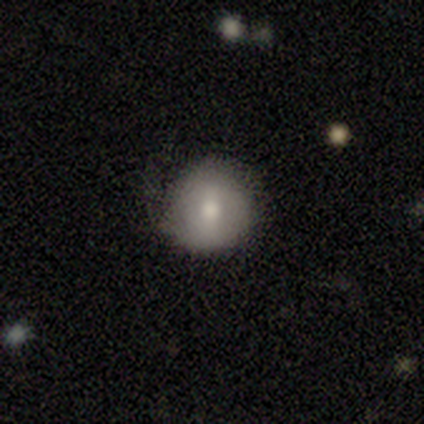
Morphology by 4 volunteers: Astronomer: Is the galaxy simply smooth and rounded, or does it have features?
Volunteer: smooth — 50%, tied with featured or disk at 50%.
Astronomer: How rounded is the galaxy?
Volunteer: round — 100%.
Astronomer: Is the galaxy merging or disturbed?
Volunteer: none — 50%, tied with minor disturbance at 50%.